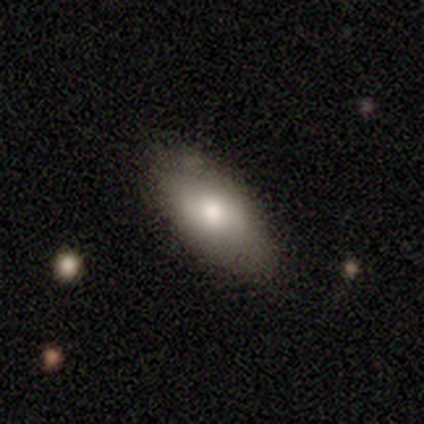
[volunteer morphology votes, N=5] smooth_or_featured: smooth (p=0.60) [alt: featured or disk p=0.40]
how_rounded: in between (p=1.00)
merging: none (p=0.80) [alt: major disturbance p=0.20]